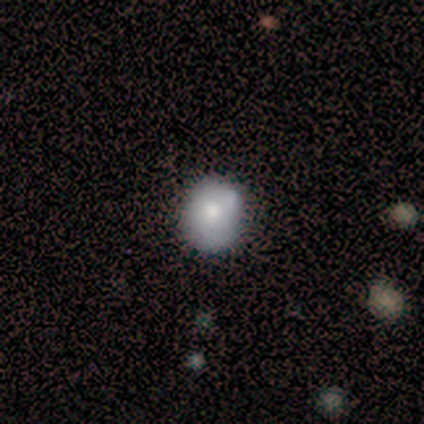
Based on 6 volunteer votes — Smooth or featured? smooth (67%)
How rounded? round (100%)
Merging? none (67%)